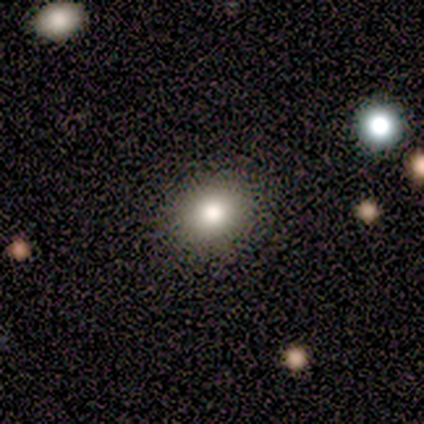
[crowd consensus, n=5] Volunteers were most divided on "how rounded": round: 80%, in between: 20%, cigar-shaped: 0%. More confident: smooth or featured — smooth (100%); merging — none (80%).